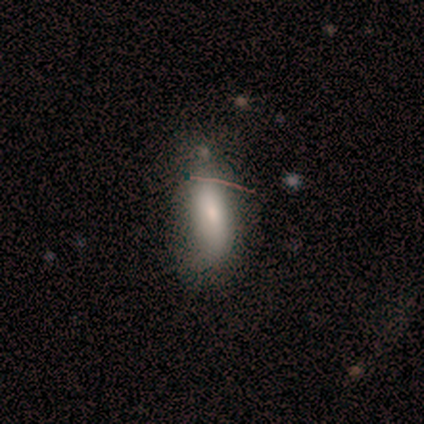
Q: Smooth or featured?
A: smooth (60%); runner-up: featured or disk (20%)
Q: How rounded?
A: in between (67%); runner-up: cigar-shaped (33%)
Q: Merging?
A: none (100%)